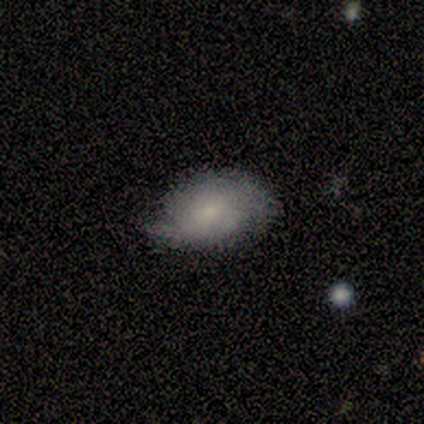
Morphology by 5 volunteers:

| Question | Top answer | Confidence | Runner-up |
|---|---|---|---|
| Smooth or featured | smooth | 80% | featured or disk (20%) |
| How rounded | in between | 75% | round (25%) |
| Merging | none | 80% | minor disturbance (20%) |